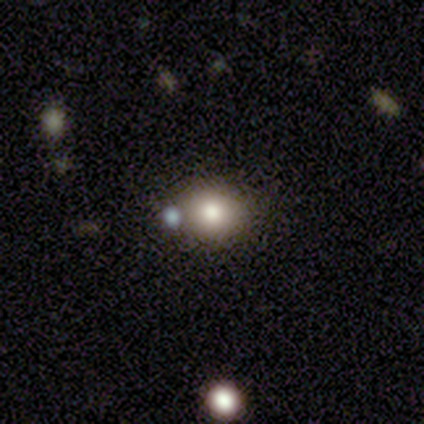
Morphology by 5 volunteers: This is clearly a smooth galaxy (80%). How rounded: possibly round (50%, tied with in between). Merging: likely none (75%).